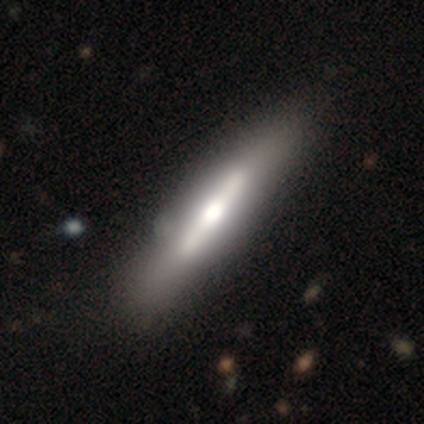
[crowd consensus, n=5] Smooth or featured? 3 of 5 (60%) said featured or disk. Edge-on disk? 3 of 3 (100%) said yes. Edge-on bulge? 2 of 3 (67%) said boxy. Merging? 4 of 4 (100%) said none.